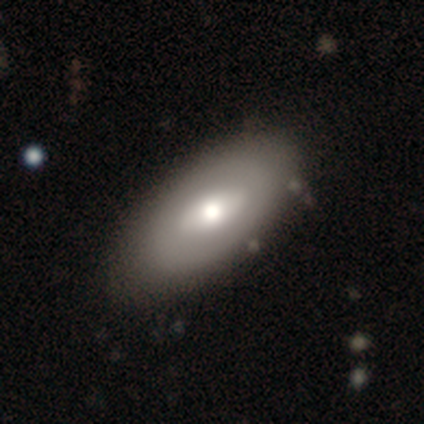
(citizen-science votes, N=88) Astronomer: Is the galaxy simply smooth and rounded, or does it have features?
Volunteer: smooth — 50% (runner-up: featured or disk, 42%).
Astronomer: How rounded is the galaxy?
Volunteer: in between — 86%.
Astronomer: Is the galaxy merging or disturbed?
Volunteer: none — 84%.